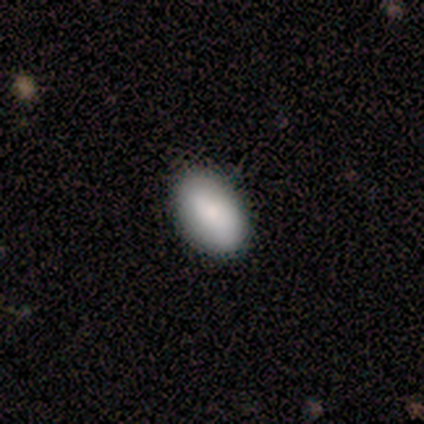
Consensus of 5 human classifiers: smooth 80%, featured or disk 20%, star or artifact 0%. Down the decision tree: how rounded — in between (100%); merging — none (100%).